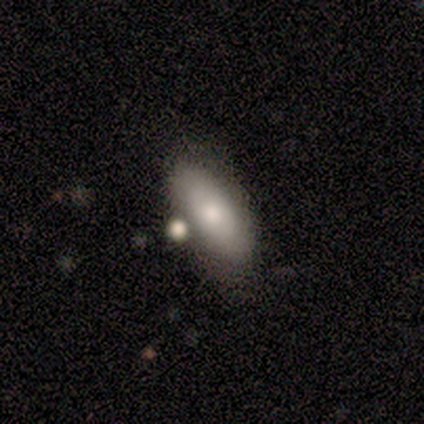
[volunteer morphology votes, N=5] Smooth or featured: smooth — 80% (featured or disk — 20%)
How rounded: in between — 100%
Merging: minor disturbance — 40% (tied with merger — 40%)